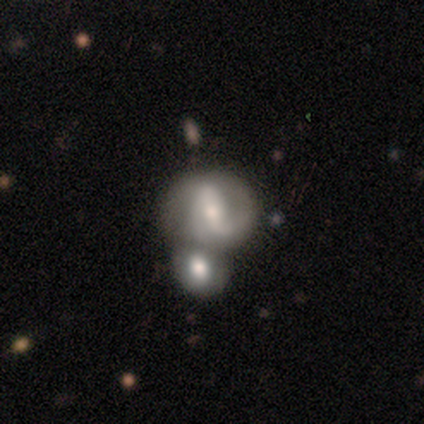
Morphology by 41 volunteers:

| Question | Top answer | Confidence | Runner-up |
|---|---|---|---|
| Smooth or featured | featured or disk | 85% | smooth (10%) |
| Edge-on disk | no | 97% | yes (3%) |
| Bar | weak | 44% | strong (41%) |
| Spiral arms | yes | 76% | no (24%) |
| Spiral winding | loose | 42% | medium (35%) |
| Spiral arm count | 2 | 81% | 1 (8%) |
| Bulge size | moderate | 59% | small (35%) |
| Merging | merger | 59% | none (18%) |